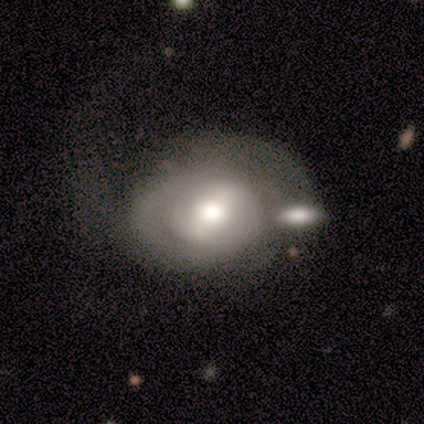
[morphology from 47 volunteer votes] Overall: featured or disk (72%). Edge-on disk: no (94%). Bar: weak (47%; strong 34%). Spiral arms: yes (75%). Spiral arm count: can't tell (50%; 2 46%). Spiral winding: tight (46%; medium 29%). Bulge size: moderate (72%). Merging: none (30%; major disturbance 28%).